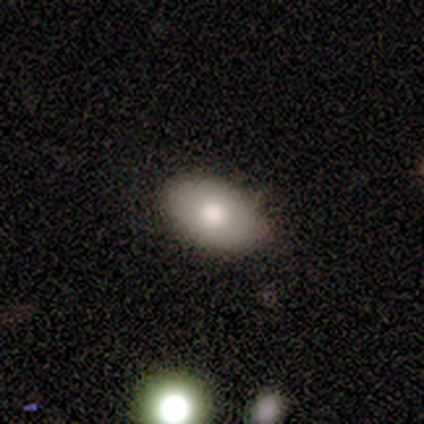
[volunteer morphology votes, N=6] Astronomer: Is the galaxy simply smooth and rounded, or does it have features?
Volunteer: smooth — 100%.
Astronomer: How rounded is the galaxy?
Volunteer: in between — 100%.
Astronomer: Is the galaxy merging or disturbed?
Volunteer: none — 100%.